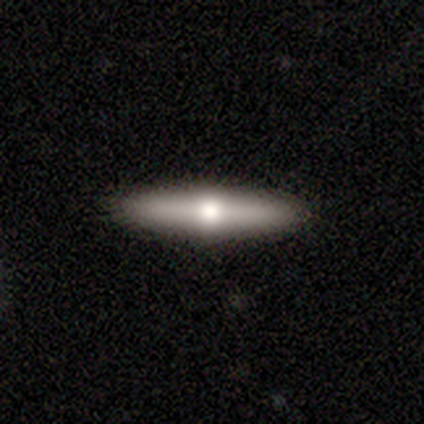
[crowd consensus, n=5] Q: Smooth or featured?
A: featured or disk (80%); runner-up: star or artifact (20%)
Q: Edge-on disk?
A: yes (100%)
Q: Edge-on bulge?
A: rounded (100%)
Q: Merging?
A: none (100%)